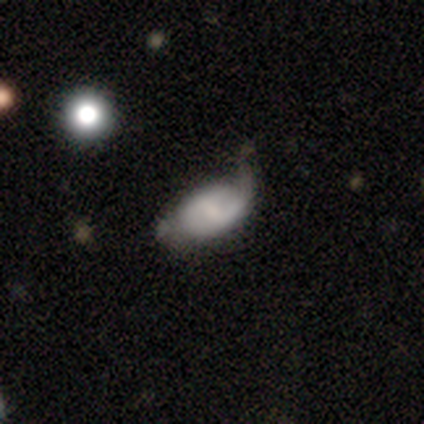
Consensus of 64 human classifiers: Q: Smooth or featured?
A: featured or disk (50%); runner-up: smooth (38%)
Q: Edge-on disk?
A: no (100%)
Q: Bar?
A: weak (69%); runner-up: no (22%)
Q: Spiral arms?
A: yes (72%); runner-up: no (28%)
Q: Spiral winding?
A: medium (43%); tied with: loose (43%)
Q: Spiral arm count?
A: 2 (52%); runner-up: 1 (26%)
Q: Bulge size?
A: small (34%); runner-up: moderate (31%)
Q: Merging?
A: none (36%); runner-up: minor disturbance (34%)